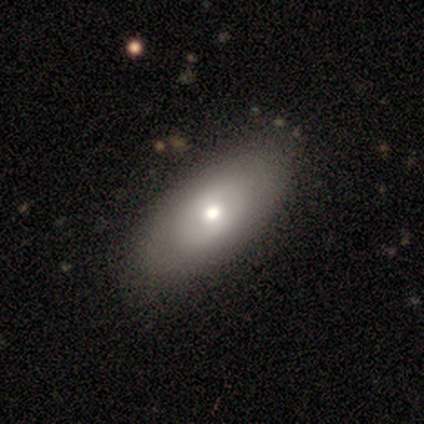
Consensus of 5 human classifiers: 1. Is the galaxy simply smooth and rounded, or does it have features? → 80% smooth, 20% featured or disk, 0% star or artifact.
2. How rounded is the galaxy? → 100% in between, 0% round, 0% cigar-shaped.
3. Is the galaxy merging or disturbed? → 60% none, 40% minor disturbance, 0% major disturbance, 0% merger.